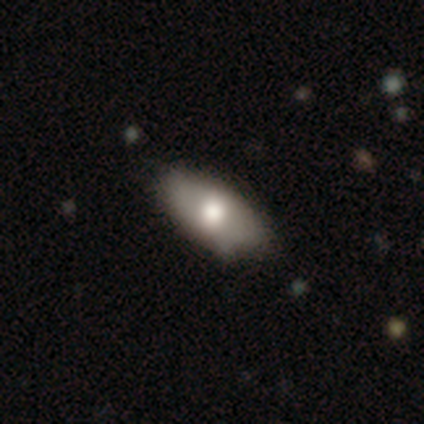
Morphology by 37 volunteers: smooth_or_featured: smooth (p=0.54) [alt: featured or disk p=0.41]
how_rounded: in between (p=0.95) [alt: round p=0.05]
merging: none (p=0.43) [alt: minor disturbance p=0.20]